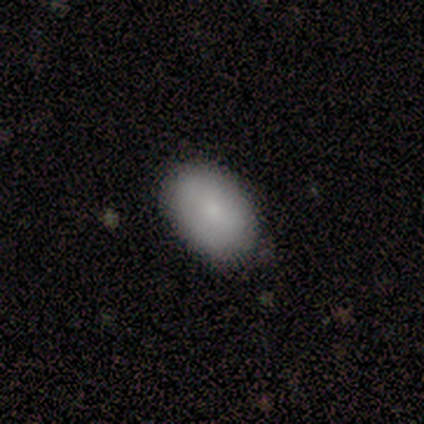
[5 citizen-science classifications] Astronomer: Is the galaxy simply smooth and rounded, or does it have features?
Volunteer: smooth — 100%.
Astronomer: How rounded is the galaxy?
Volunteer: in between — 60% (runner-up: round, 40%).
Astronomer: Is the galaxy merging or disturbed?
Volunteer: none — 60% (runner-up: minor disturbance, 40%).